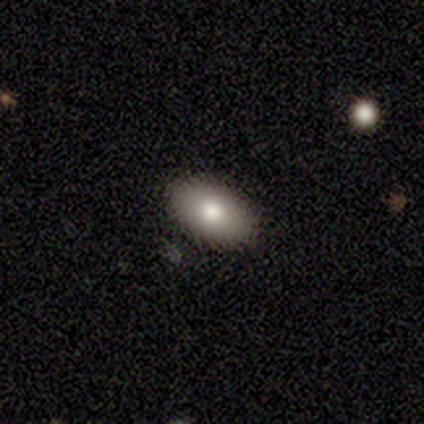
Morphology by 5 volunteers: This appears to be a smooth galaxy with no disk features (80%) that is in between round and cigar-shaped (100%). Merging: none (80%).